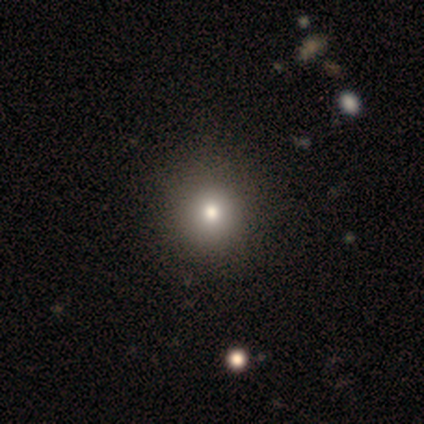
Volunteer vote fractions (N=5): Smooth or featured? 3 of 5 (60%) said smooth. How rounded? 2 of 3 (67%) said round. Merging? 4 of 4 (100%) said none.